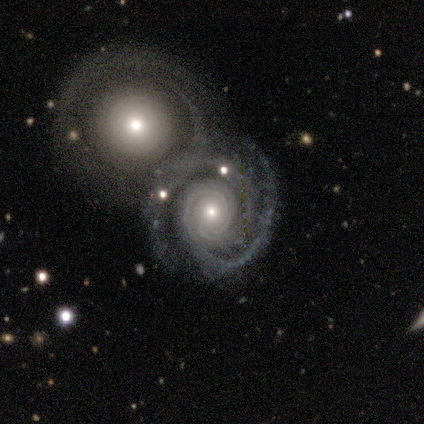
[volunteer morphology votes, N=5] A featured or disk galaxy (80%) with no bar (75%), tight (75%) spiral arms (100%) and a small central bulge (100%).

Vote fractions:
- Smooth or featured? featured or disk: 80% / smooth: 20% / star or artifact: 0%
- Edge-on disk? no: 100% / yes: 0%
- Bar? no: 75% / weak: 25% / strong: 0%
- Spiral arms? yes: 100% / no: 0%
- Spiral winding? tight: 75% / loose: 25% / medium: 0%
- Spiral arm count? can't tell: 50% / 2: 25% / 3: 25% / 1: 0% / 4: 0% / more than 4: 0%
- Bulge size? small: 100% / dominant: 0% / large: 0% / moderate: 0% / none: 0%
- Merging? none: 60% / merger: 40% / minor disturbance: 0% / major disturbance: 0%